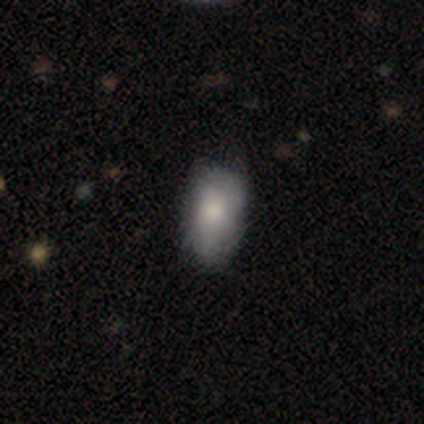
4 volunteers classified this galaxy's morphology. Volunteers were most divided on "merging" (2-way tie): none: 50%, minor disturbance: 50%, major disturbance: 0%, merger: 0%. More confident: smooth or featured — smooth (100%); how rounded — in between (100%).